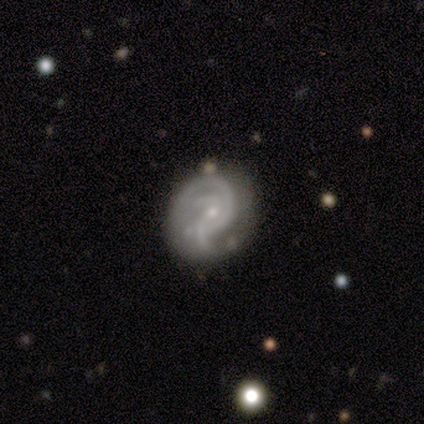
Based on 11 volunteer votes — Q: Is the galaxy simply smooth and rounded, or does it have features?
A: featured or disk — 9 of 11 (82%).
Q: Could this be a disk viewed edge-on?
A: no — 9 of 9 (100%).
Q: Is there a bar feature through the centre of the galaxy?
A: no — 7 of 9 (78%).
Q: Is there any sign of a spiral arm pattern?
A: yes — 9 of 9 (100%).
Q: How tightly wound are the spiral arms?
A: medium — 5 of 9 (56%).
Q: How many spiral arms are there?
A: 2 — 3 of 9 (33%).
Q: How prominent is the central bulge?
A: small — 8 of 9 (89%).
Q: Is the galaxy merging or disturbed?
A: none — 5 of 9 (56%).